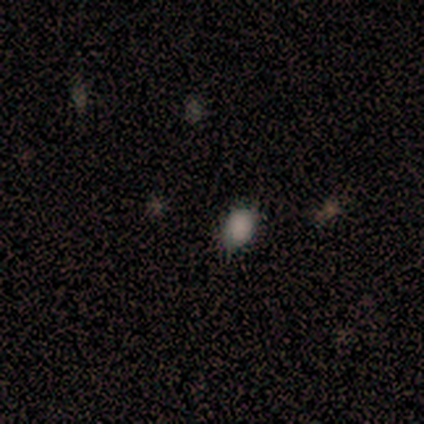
Overall: smooth (67%; star or artifact 33%). How rounded: in between (100%). Merging: none (100%).